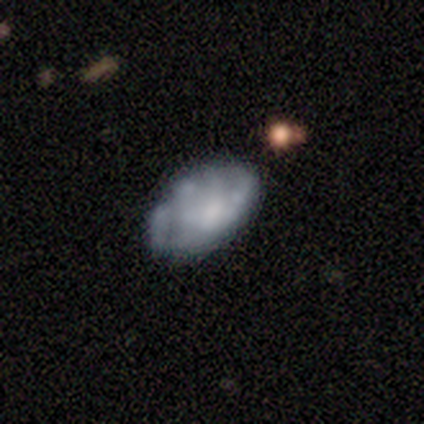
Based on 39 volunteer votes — smooth-or-featured: featured or disk: 62% | smooth: 28% | star or artifact: 10%
  disk-edge-on: no: 88% | yes: 12%
    bar: no: 81% | weak: 14% | strong: 5%
    has-spiral-arms: no: 81% | yes: 19%
    bulge-size: none: 38% | moderate: 19% | dominant: 14% | large: 14% | small: 14%
  merging: none: 60% | minor disturbance: 17% | major disturbance: 11% | merger: 11%